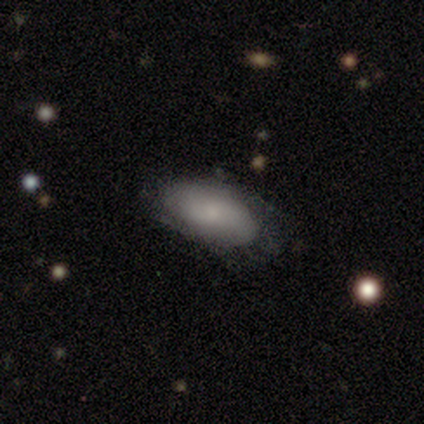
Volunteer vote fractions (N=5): A featured or disk galaxy (60%) with no bar (67%), 2 (100%) tight (50%, tied with loose) spiral arms (67%) and a small central bulge (100%).

Vote fractions:
- Smooth or featured? featured or disk: 60% / smooth: 40% / star or artifact: 0%
- Edge-on disk? no: 100% / yes: 0%
- Bar? no: 67% / weak: 33% / strong: 0%
- Spiral arms? yes: 67% / no: 33%
- Spiral winding? tight: 50% (tied) / loose: 50% (tied) / medium: 0%
- Spiral arm count? 2: 100% / 1: 0% / 3: 0% / 4: 0% / more than 4: 0% / can't tell: 0%
- Bulge size? small: 100% / dominant: 0% / large: 0% / moderate: 0% / none: 0%
- Merging? none: 60% / minor disturbance: 40% / major disturbance: 0% / merger: 0%